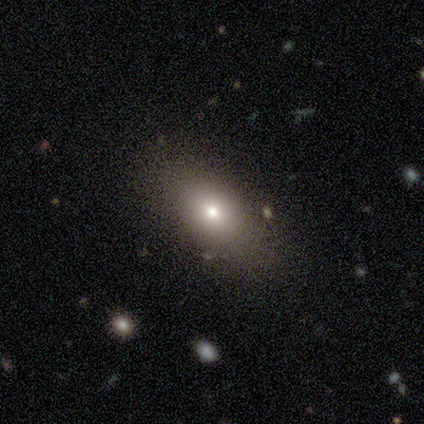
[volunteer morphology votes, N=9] A smooth galaxy with no disk features (89%) that is in between round and cigar-shaped (100%).

Vote fractions:
- Smooth or featured? smooth: 89% / featured or disk: 11% / star or artifact: 0%
- How rounded? in between: 100% / round: 0% / cigar-shaped: 0%
- Merging? none: 78% / minor disturbance: 11% / major disturbance: 11% / merger: 0%